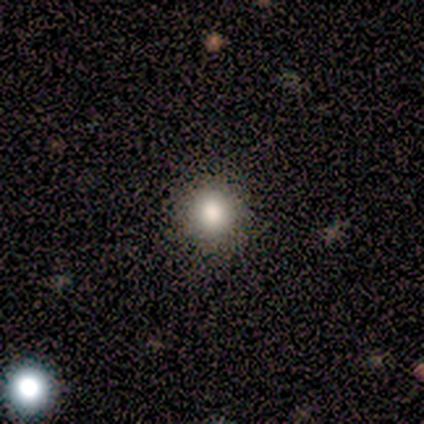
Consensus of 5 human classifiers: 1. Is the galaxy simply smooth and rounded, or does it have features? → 80% smooth, 20% star or artifact, 0% featured or disk.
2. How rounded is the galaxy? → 100% round, 0% in between, 0% cigar-shaped.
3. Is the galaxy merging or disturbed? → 100% none, 0% minor disturbance, 0% major disturbance, 0% merger.